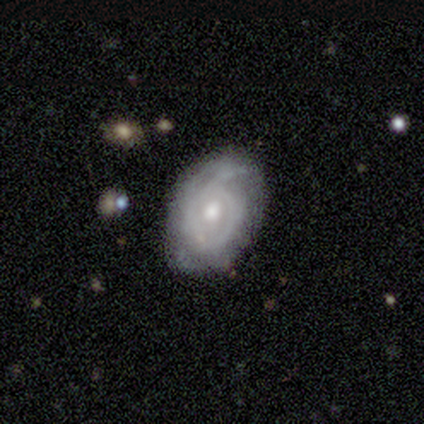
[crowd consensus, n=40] A featured or disk galaxy (82%) with no bar (67%), tight (66%) spiral arms (97%) and a moderate central bulge (70%). Merging: none (79%).